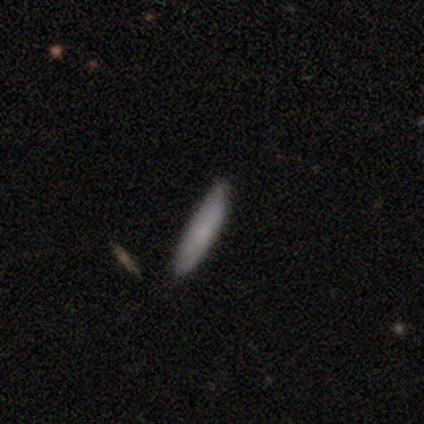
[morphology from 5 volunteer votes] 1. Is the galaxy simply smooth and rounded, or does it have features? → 60% featured or disk, 40% smooth, 0% star or artifact.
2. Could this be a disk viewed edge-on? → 67% no, 33% yes.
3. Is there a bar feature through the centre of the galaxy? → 100% no, 0% strong, 0% weak.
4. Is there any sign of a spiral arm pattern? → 50% yes (tied), 50% no (tied).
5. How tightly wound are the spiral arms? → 100% tight, 0% medium, 0% loose.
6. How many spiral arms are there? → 100% can't tell, 0% 1, 0% 2, 0% 3, 0% 4, 0% more than 4.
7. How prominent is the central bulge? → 50% moderate (tied), 50% small (tied), 0% dominant, 0% large, 0% none.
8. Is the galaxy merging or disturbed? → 100% none, 0% minor disturbance, 0% major disturbance, 0% merger.